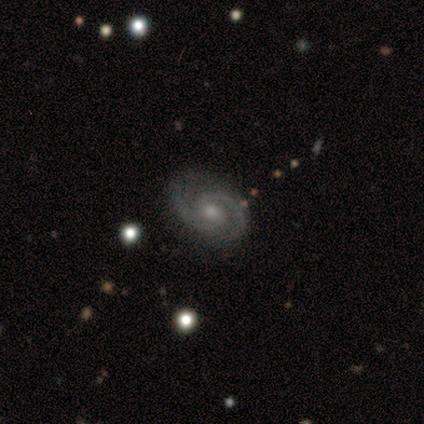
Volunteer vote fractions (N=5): A featured or disk galaxy (100%) with a weak bar (60%), 2 (100%) medium (80%) spiral arms (100%) and a small central bulge (100%). Merging: none (60%).